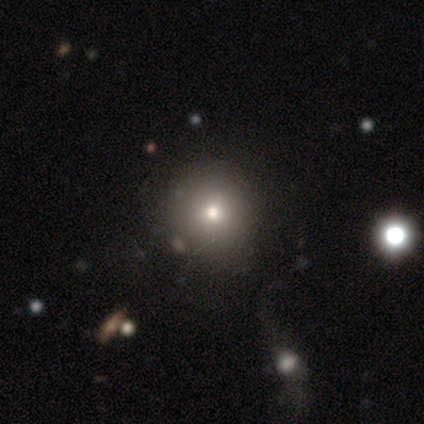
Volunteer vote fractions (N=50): smooth 64%, star or artifact 20%, featured or disk 16%. Down the decision tree: how rounded — round (91%); merging — none (80%).